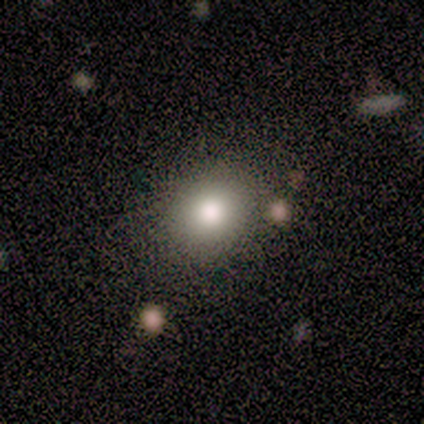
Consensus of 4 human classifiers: Q: Smooth or featured?
A: smooth (100%)
Q: How rounded?
A: in between (75%); runner-up: round (25%)
Q: Merging?
A: none (75%); runner-up: minor disturbance (25%)